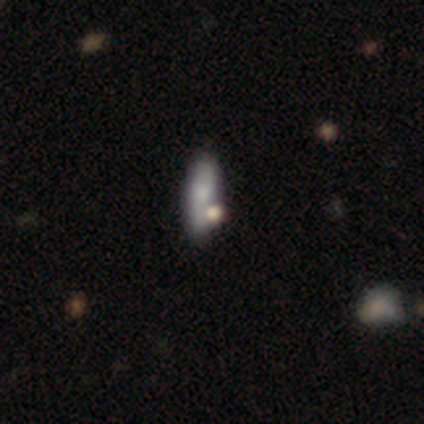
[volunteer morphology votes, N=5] A smooth galaxy with no disk features (80%) that is in between round and cigar-shaped (75%).

Vote fractions:
- Smooth or featured? smooth: 80% / star or artifact: 20% / featured or disk: 0%
- How rounded? in between: 75% / cigar-shaped: 25% / round: 0%
- Merging? none: 50% / minor disturbance: 25% / major disturbance: 25% / merger: 0%